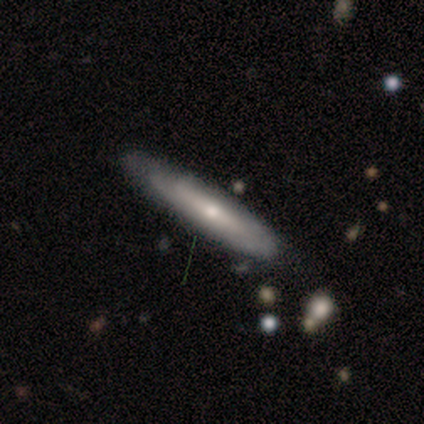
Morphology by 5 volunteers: Q: Smooth or featured?
A: featured or disk (80%); runner-up: smooth (20%)
Q: Edge-on disk?
A: yes (50%); tied with: no (50%)
Q: Edge-on bulge?
A: rounded (100%)
Q: Merging?
A: none (100%)